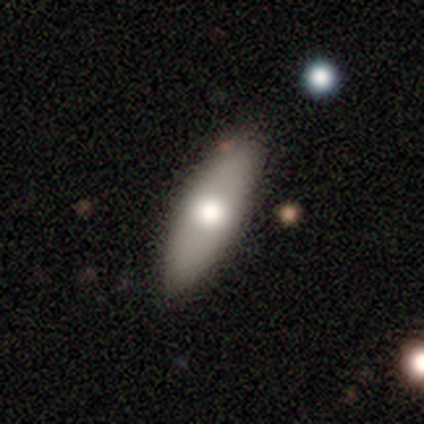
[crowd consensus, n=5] Q: Smooth or featured?
A: smooth (80%); runner-up: featured or disk (20%)
Q: How rounded?
A: in between (50%); tied with: cigar-shaped (50%)
Q: Merging?
A: none (100%)